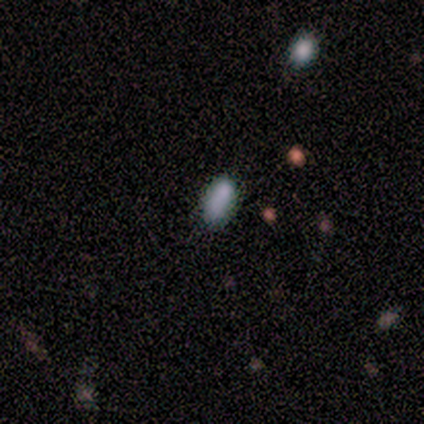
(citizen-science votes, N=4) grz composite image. It shows a smooth galaxy with no disk features (75%) that is in between round and cigar-shaped (67%). Merging: none (75%).